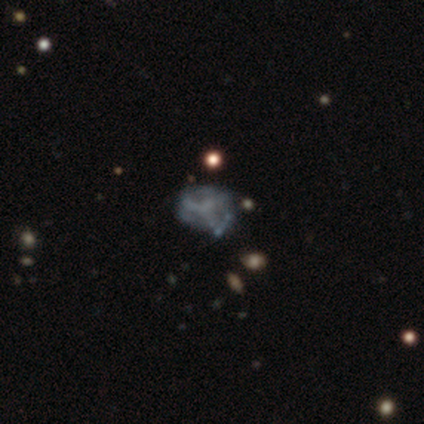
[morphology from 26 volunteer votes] Overall: featured or disk (62%; star or artifact 27%). Edge-on disk: no (100%). Bar: no (100%). Spiral arms: no (81%). Bulge size: none (75%). Merging: none (63%; minor disturbance 26%).